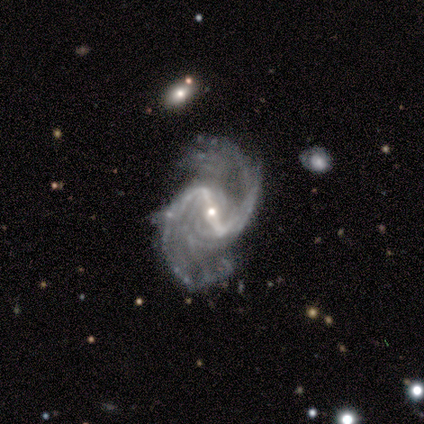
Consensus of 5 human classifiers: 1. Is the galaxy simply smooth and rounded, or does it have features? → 100% featured or disk, 0% smooth, 0% star or artifact.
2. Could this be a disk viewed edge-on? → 100% no, 0% yes.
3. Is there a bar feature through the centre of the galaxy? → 80% strong, 20% weak, 0% no.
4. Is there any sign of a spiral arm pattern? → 100% yes, 0% no.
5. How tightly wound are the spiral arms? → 60% medium, 40% loose, 0% tight.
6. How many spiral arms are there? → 100% 2, 0% 1, 0% 3, 0% 4, 0% more than 4, 0% can't tell.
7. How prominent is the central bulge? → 80% small, 20% moderate, 0% dominant, 0% large, 0% none.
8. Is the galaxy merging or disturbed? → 60% none, 40% minor disturbance, 0% major disturbance, 0% merger.